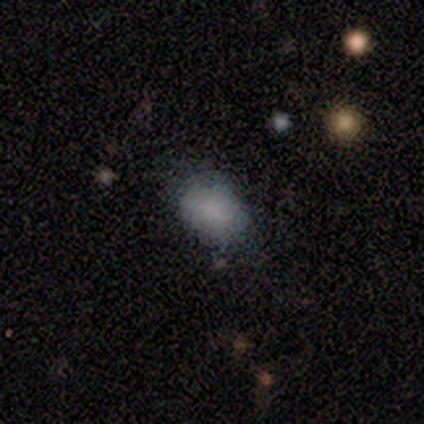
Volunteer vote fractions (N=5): A smooth galaxy with no disk features (80%) that is in between round and cigar-shaped (100%).

Vote fractions:
- Smooth or featured? smooth: 80% / featured or disk: 20% / star or artifact: 0%
- How rounded? in between: 100% / round: 0% / cigar-shaped: 0%
- Merging? none: 80% / minor disturbance: 20% / major disturbance: 0% / merger: 0%